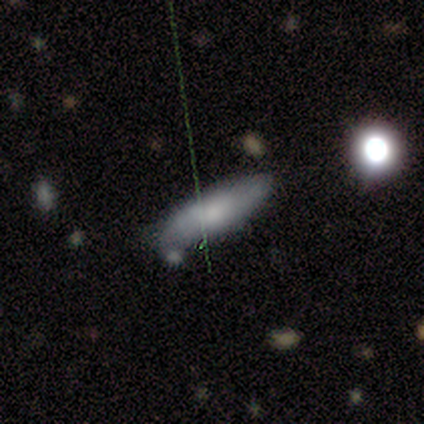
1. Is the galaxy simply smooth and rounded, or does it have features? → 100% smooth, 0% featured or disk, 0% star or artifact.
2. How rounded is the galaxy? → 80% in between, 20% cigar-shaped, 0% round.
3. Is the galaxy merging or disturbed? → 80% none, 20% minor disturbance, 0% major disturbance, 0% merger.